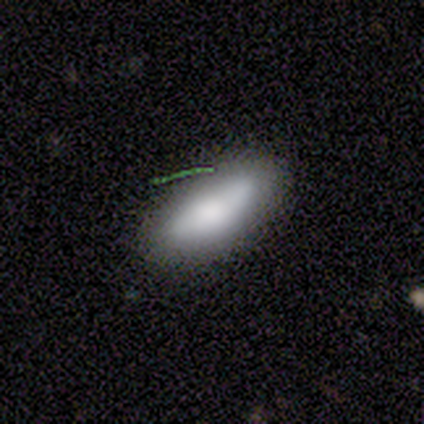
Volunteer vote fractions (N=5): A smooth galaxy with no disk features (60%) that is in between round and cigar-shaped (67%).

Vote fractions:
- Smooth or featured? smooth: 60% / featured or disk: 20% / star or artifact: 20%
- How rounded? in between: 67% / cigar-shaped: 33% / round: 0%
- Merging? none: 75% / minor disturbance: 25% / major disturbance: 0% / merger: 0%